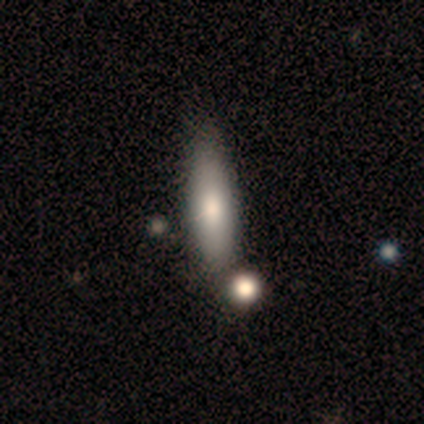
This is likely a smooth galaxy (73%). How rounded: possibly in between (53%). Merging: possibly none (50%).